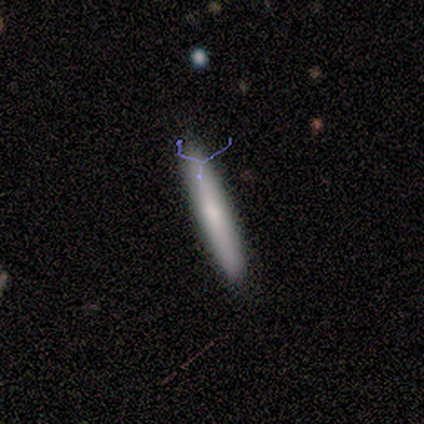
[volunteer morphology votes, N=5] Smooth or featured?
  - smooth: 100% *
  - featured or disk: 0%
  - star or artifact: 0%
How rounded?
  - cigar-shaped: 100% *
  - round: 0%
  - in between: 0%
Merging?
  - none: 100% *
  - minor disturbance: 0%
  - major disturbance: 0%
  - merger: 0%